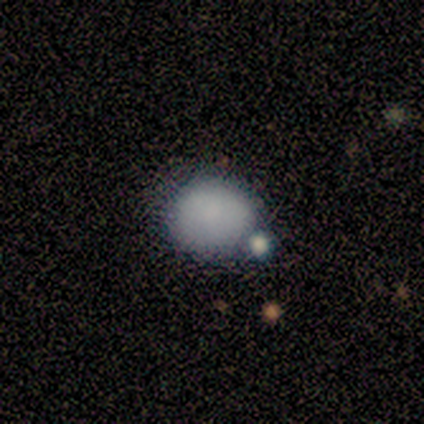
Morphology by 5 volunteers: type=smooth (100%); roundness=round (80%); merging=none (80%).